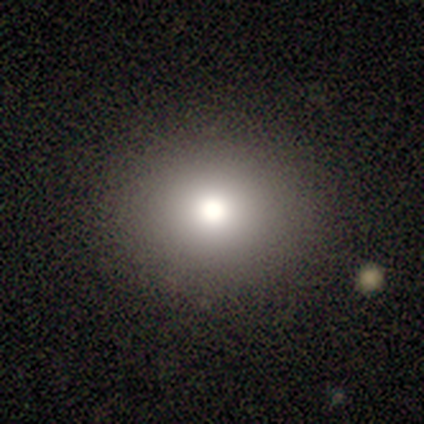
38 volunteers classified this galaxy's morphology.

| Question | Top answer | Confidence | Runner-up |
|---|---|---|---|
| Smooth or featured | smooth | 79% | star or artifact (13%) |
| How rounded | round | 77% | in between (23%) |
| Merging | none | 94% | minor disturbance (6%) |